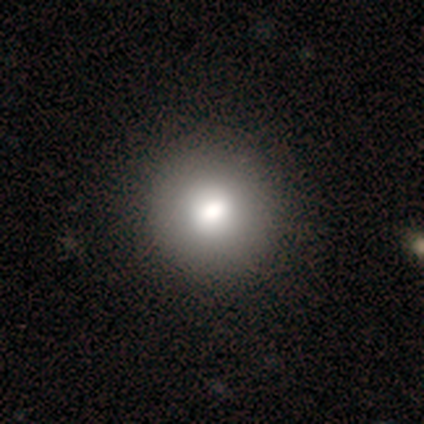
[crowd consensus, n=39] smooth_or_featured: smooth (p=0.82) [alt: featured or disk p=0.13]
how_rounded: round (p=0.91) [alt: in between p=0.09]
merging: none (p=0.59) [alt: minor disturbance p=0.03]